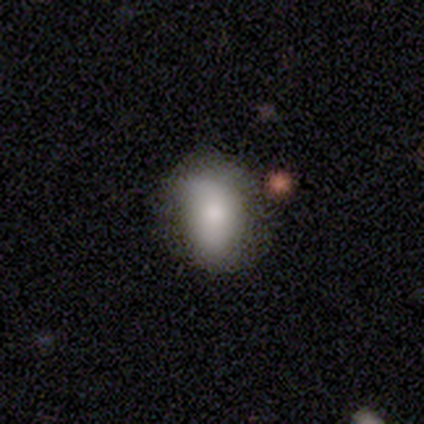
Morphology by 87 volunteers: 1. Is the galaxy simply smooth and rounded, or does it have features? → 76% smooth, 20% featured or disk, 5% star or artifact.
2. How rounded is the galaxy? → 76% in between, 24% round, 0% cigar-shaped.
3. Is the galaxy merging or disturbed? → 49% none, 39% minor disturbance, 10% major disturbance, 2% merger.